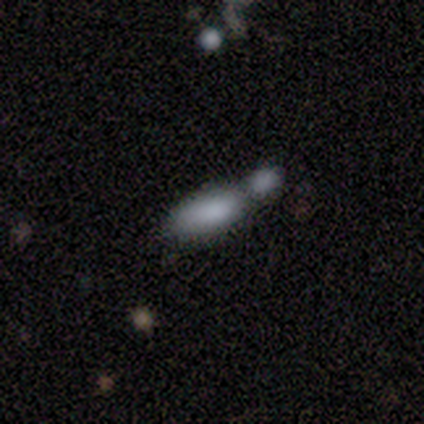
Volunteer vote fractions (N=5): Smooth or featured? 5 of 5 (100%) said smooth. How rounded? 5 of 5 (100%) said in between. Merging? 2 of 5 (40%, tied with merger) said minor disturbance.